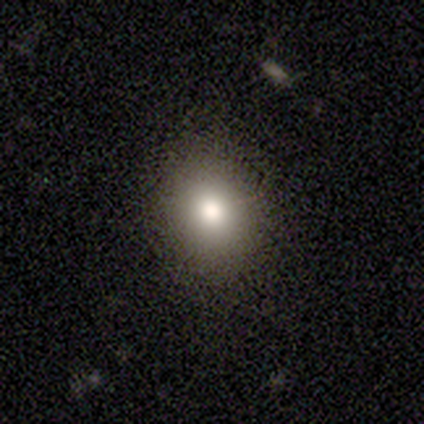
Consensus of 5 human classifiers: Smooth or featured?
  - smooth: 100% *
  - featured or disk: 0%
  - star or artifact: 0%
How rounded?
  - round: 60% *
  - in between: 40%
  - cigar-shaped: 0%
Merging?
  - none: 100% *
  - minor disturbance: 0%
  - major disturbance: 0%
  - merger: 0%